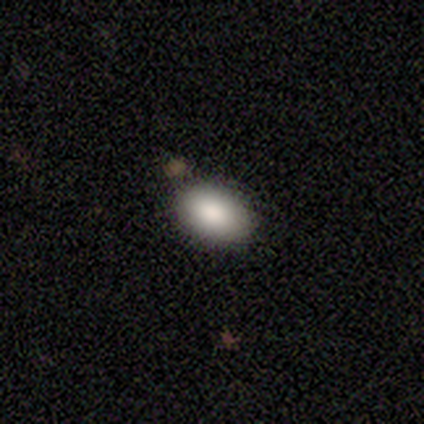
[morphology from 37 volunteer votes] A smooth galaxy with no disk features (84%) that is in between round and cigar-shaped (90%).

Vote fractions:
- Smooth or featured? smooth: 84% / featured or disk: 8% / star or artifact: 8%
- How rounded? in between: 90% / round: 10% / cigar-shaped: 0%
- Merging? none: 79% / minor disturbance: 9% / merger: 9% / major disturbance: 3%